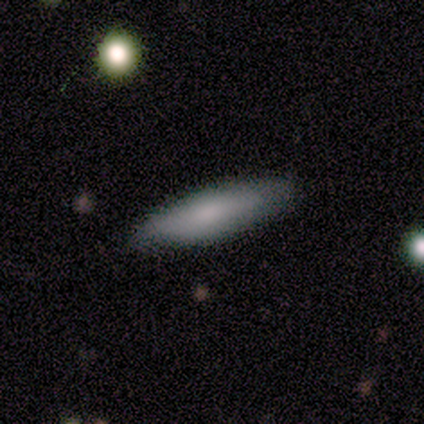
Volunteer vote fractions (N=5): Smooth or featured?
  - smooth: 80% *
  - star or artifact: 20%
  - featured or disk: 0%
How rounded?
  - cigar-shaped: 75% *
  - in between: 25%
  - round: 0%
Merging?
  - none: 100% *
  - minor disturbance: 0%
  - major disturbance: 0%
  - merger: 0%